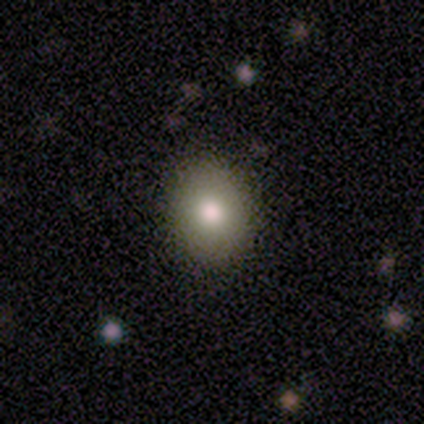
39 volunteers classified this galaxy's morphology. Overall: smooth (72%). How rounded: round (50%, tied with in between). Merging: none (91%).